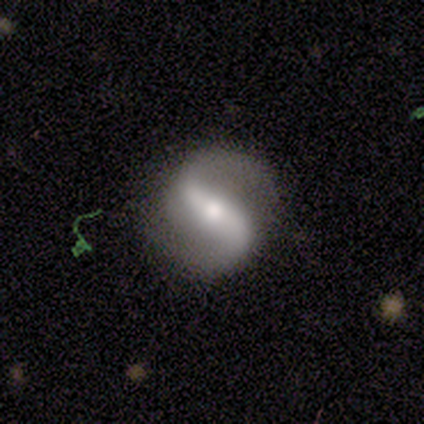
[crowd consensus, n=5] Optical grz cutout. It shows a featured or disk galaxy (80%) with a strong bar (75%), 2 (100%) loose (75%) spiral arms (100%) and a small central bulge (50%). Merging: none (80%).